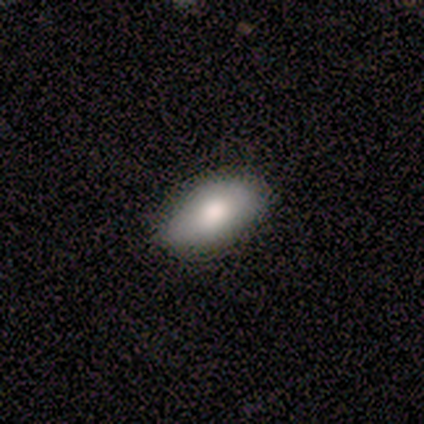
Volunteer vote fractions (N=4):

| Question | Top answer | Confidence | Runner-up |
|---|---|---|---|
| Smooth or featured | smooth | 100% | — |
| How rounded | in between | 75% | cigar-shaped (25%) |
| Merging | none | 75% | minor disturbance (25%) |